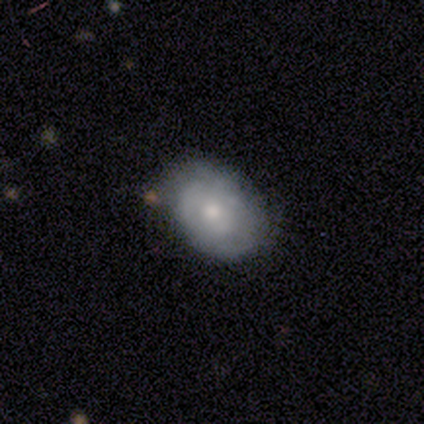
Smooth or featured? 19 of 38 (50%) said smooth. How rounded? 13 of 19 (68%) said in between. Merging? 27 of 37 (73%) said none.